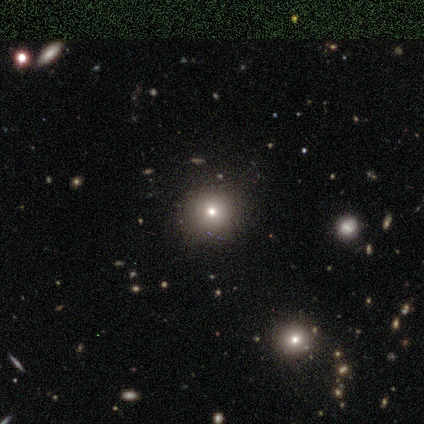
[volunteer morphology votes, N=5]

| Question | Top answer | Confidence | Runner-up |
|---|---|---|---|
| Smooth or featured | smooth | 60% | star or artifact (40%) |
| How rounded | round | 100% | — |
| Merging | none | 100% | — |